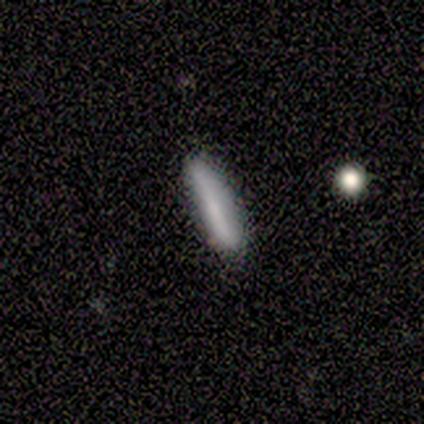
smooth_or_featured: smooth (p=1.00)
how_rounded: cigar-shaped (p=1.00)
merging: none (p=1.00)